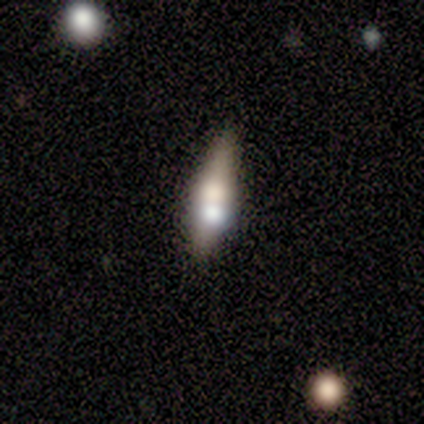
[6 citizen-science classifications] This is possibly a featured or disk galaxy (50%). It is likely viewed edge-on (67%). Edge-on bulge: clearly rounded (100%). Merging: likely none (60%).